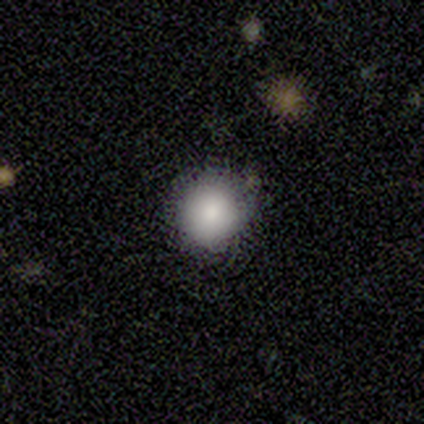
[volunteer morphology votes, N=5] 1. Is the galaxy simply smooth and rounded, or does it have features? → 60% smooth, 40% featured or disk, 0% star or artifact.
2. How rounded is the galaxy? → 100% round, 0% in between, 0% cigar-shaped.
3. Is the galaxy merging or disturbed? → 80% none, 20% minor disturbance, 0% major disturbance, 0% merger.